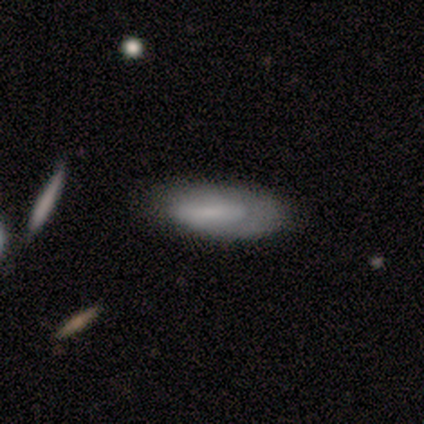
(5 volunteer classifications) Smooth or featured? 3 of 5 (60%) said smooth. How rounded? 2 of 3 (67%) said in between. Merging? 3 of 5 (60%) said none.